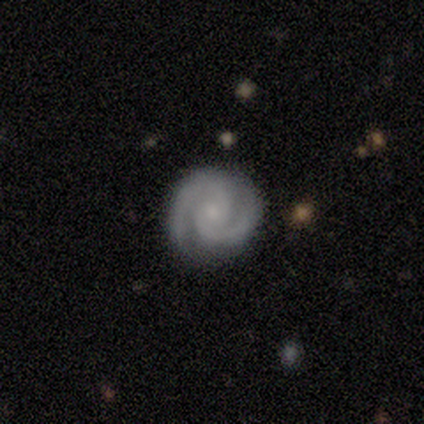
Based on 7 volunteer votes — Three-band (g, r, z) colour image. It shows a featured or disk galaxy (86%) with a weak bar (50%, tied with no), 2 (100%) tight (83%) spiral arms (100%) and a small central bulge (50%). Merging: none (43%).